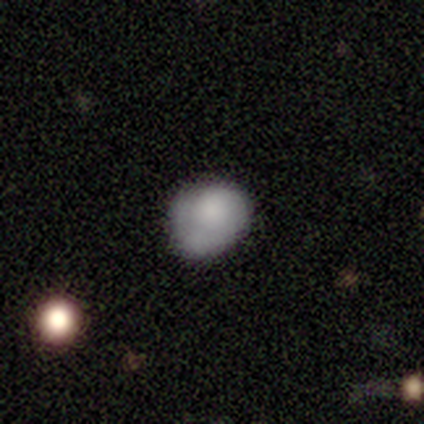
This is likely a smooth galaxy (75%). How rounded: clearly round (100%). Merging: marginally none (25%, tied with minor disturbance, major disturbance and merger).